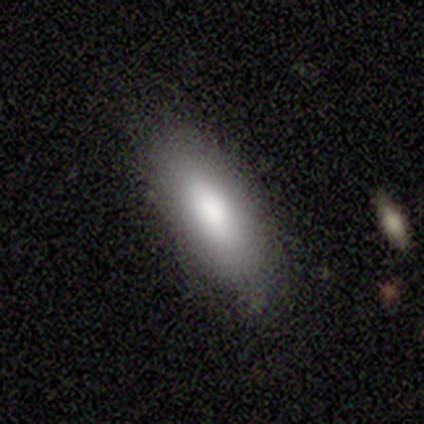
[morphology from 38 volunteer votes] smooth-or-featured: smooth: 82% | featured or disk: 16% | star or artifact: 3%
  how-rounded: in between: 84% | cigar-shaped: 16% | round: 0%
  merging: none: 78% | minor disturbance: 19% | merger: 3% | major disturbance: 0%